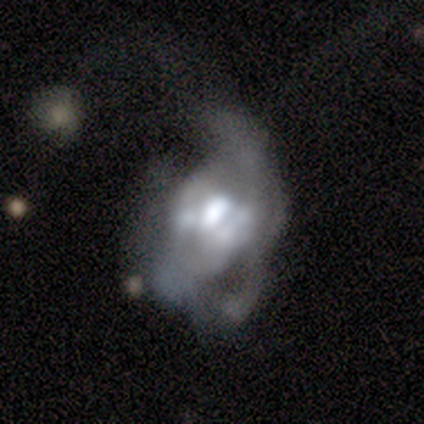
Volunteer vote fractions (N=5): A featured or disk galaxy (80%) with no bar (100%), no spiral arms (100%) and a moderate central bulge (75%).

Vote fractions:
- Smooth or featured? featured or disk: 80% / smooth: 20% / star or artifact: 0%
- Edge-on disk? no: 100% / yes: 0%
- Bar? no: 100% / strong: 0% / weak: 0%
- Spiral arms? no: 100% / yes: 0%
- Bulge size? moderate: 75% / large: 25% / dominant: 0% / small: 0% / none: 0%
- Merging? major disturbance: 80% / minor disturbance: 20% / none: 0% / merger: 0%